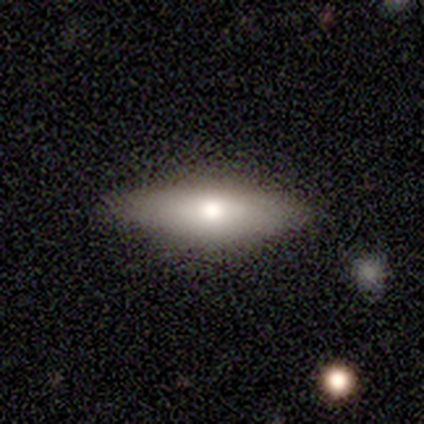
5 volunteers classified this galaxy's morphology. Smooth or featured: featured or disk — 80% (smooth — 20%)
Edge-on disk: yes — 75% (no — 25%)
Edge-on bulge: rounded — 67% (none — 33%)
Merging: none — 80% (minor disturbance — 20%)